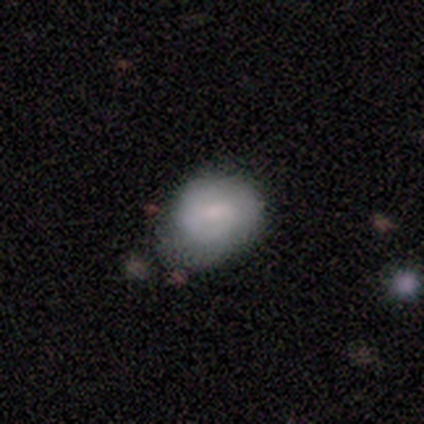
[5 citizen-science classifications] Volunteers were most divided on "merging" (2-way tie): none: 40%, major disturbance: 40%, minor disturbance: 20%, merger: 0%. More confident: how rounded — in between (67%); smooth or featured — smooth (60%).